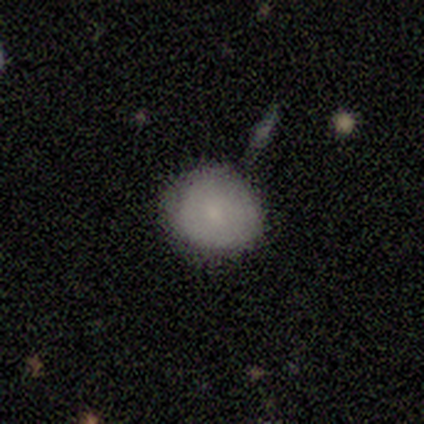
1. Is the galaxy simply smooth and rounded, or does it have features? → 100% smooth, 0% featured or disk, 0% star or artifact.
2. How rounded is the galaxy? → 100% round, 0% in between, 0% cigar-shaped.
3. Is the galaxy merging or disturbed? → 60% none, 40% minor disturbance, 0% major disturbance, 0% merger.